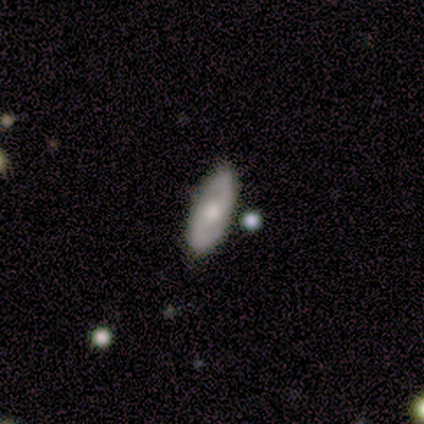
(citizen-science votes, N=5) smooth_or_featured: featured or disk (p=0.60) [alt: smooth p=0.20]
disk_edge_on: no (p=1.00)
bar: no (p=0.67) [alt: weak p=0.33]
has_spiral_arms: yes (p=1.00)
spiral_winding: tight (p=0.33) [tied with: medium p=0.33, loose p=0.33]
spiral_arm_count: 2 (p=1.00)
bulge_size: moderate (p=0.67) [alt: small p=0.33]
merging: none (p=1.00)